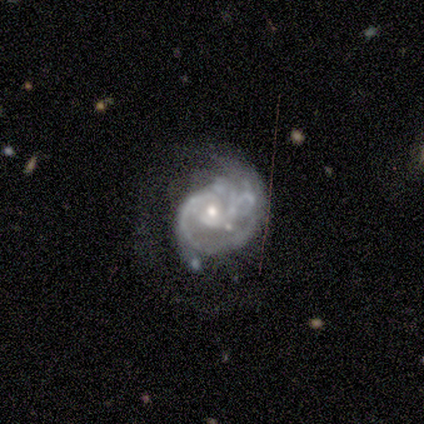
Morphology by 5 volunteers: featured or disk 80%, star or artifact 20%, smooth 0%. Down the decision tree: edge-on disk — no (100%); bar — no (75%); spiral arms — yes (100%); spiral arm count — 1 (25%, tied with 2, 3 and can't tell); spiral winding — tight (50%, tied with medium); bulge size — moderate (50%, tied with small); merging — major disturbance (75%).